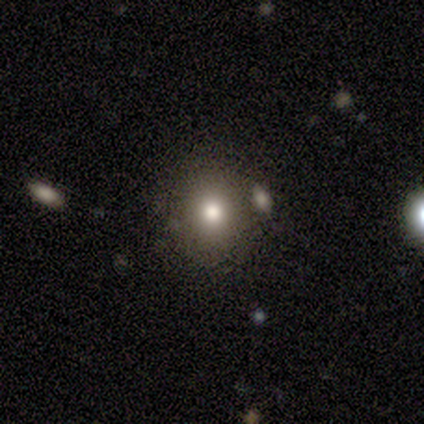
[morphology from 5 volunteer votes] Smooth or featured? smooth (60%)
How rounded? in between (67%)
Merging? none (67%)